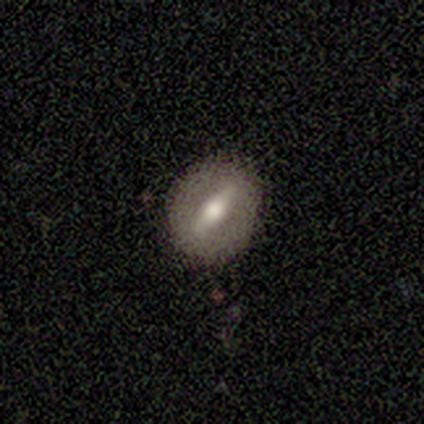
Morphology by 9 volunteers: Volunteers were most divided on "smooth or featured": featured or disk: 44%, smooth: 33%, star or artifact: 22%. More confident: merging — none (86%); edge-on disk — no (75%); bar — strong (67%); spiral arms — no (67%); bulge size — moderate (67%).